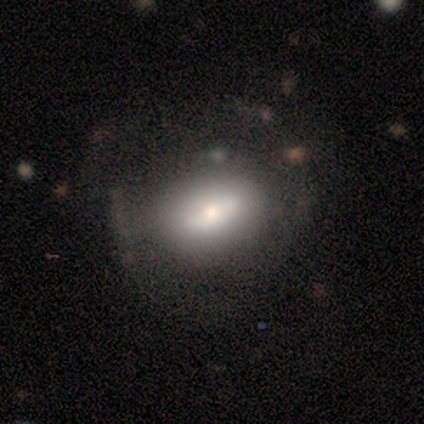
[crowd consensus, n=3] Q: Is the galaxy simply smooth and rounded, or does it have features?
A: featured or disk — 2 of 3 (67%).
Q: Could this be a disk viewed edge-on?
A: yes — 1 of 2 (50%, tied with no).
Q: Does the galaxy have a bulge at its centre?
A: rounded — 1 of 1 (100%).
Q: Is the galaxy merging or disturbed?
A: none — 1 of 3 (33%, tied with minor disturbance and major disturbance).